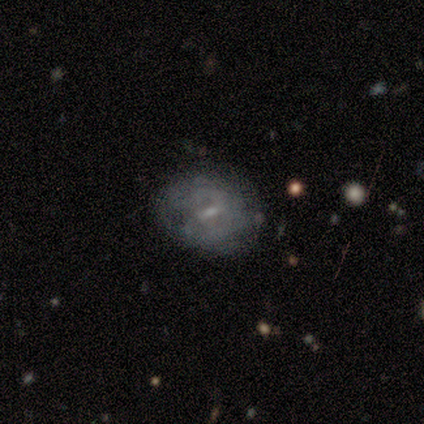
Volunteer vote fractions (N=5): Morphology: type=featured or disk (60%); edge-on=no (100%); bar=strong (67%); spiral arms=yes (100%); winding=tight (100%); arm count=can't tell (67%); bulge=small (67%); merging=none (80%).